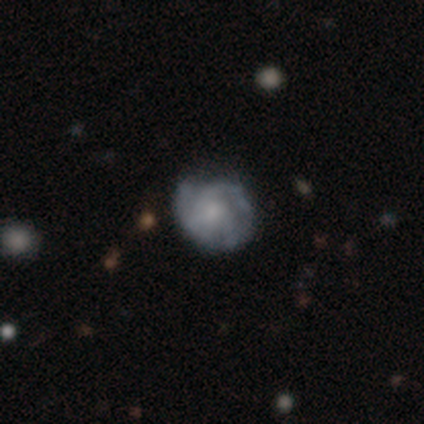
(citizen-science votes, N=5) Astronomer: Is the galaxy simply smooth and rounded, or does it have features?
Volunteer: smooth — 60% (runner-up: featured or disk, 40%).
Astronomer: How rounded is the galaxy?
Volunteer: round — 100%.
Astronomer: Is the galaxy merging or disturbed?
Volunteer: none — 60% (runner-up: minor disturbance, 40%).